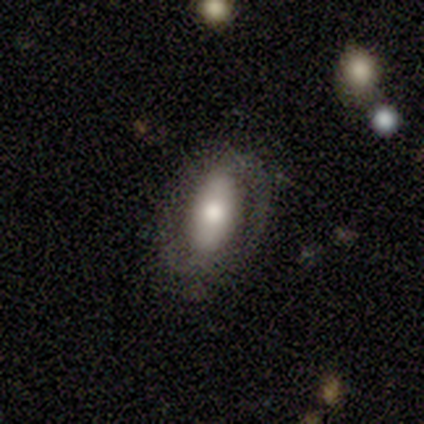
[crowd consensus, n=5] Volunteers were most divided on "smooth or featured": smooth: 60%, featured or disk: 40%, star or artifact: 0%. More confident: how rounded — in between (100%); merging — none (100%).